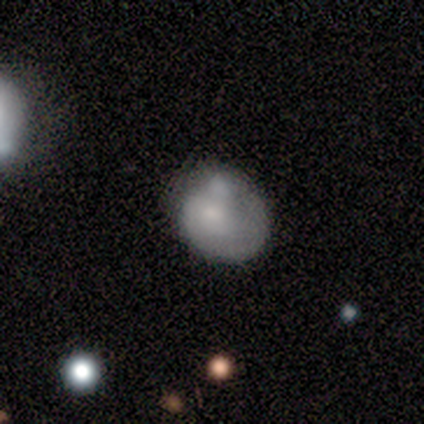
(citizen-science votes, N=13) smooth 69%, featured or disk 31%, star or artifact 0%. Down the decision tree: how rounded — in between (56%); merging — minor disturbance (62%).